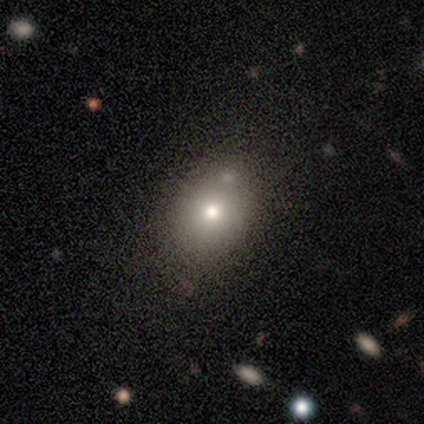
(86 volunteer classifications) Q: Smooth or featured?
A: smooth (73%); runner-up: star or artifact (20%)
Q: How rounded?
A: round (51%); runner-up: in between (49%)
Q: Merging?
A: none (74%); runner-up: minor disturbance (16%)